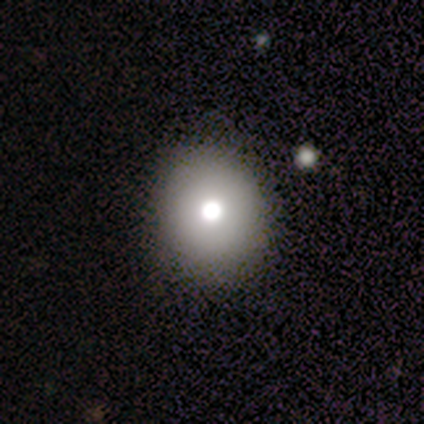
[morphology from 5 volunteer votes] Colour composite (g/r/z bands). It shows a smooth galaxy with no disk features (80%) that is round (75%). Merging: none (60%).